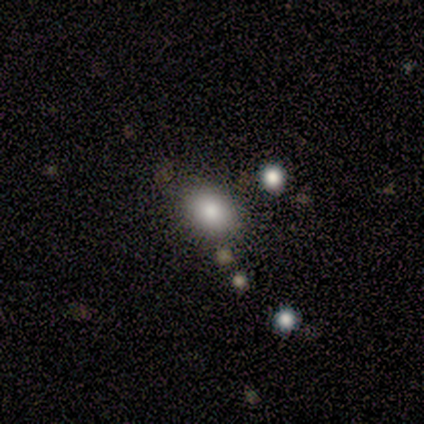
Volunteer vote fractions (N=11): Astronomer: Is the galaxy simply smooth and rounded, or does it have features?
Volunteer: smooth — 82%.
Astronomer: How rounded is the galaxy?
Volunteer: in between — 78%.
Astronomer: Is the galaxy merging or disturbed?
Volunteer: none — 100%.